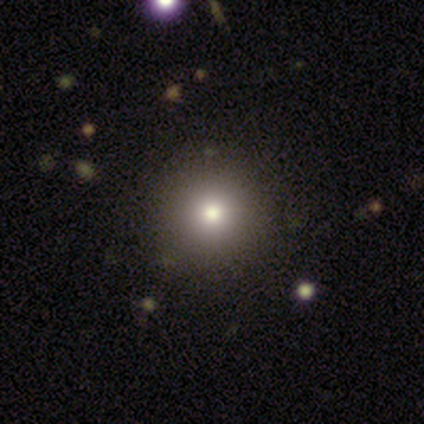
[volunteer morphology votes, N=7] Smooth or featured?
  - star or artifact: 43% *
  - smooth: 29%
  - featured or disk: 29%